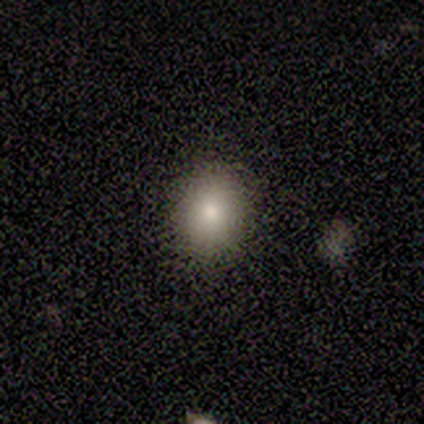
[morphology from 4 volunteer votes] type=smooth (100%); roundness=round (100%); merging=none (75%).